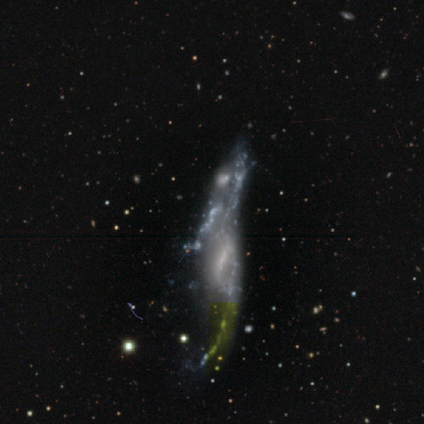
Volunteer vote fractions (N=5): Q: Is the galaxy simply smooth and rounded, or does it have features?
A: featured or disk — 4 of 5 (80%).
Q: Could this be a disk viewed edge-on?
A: no — 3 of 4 (75%).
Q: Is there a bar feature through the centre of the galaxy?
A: weak — 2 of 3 (67%).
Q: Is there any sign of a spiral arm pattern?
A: no — 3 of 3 (100%).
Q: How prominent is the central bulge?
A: small — 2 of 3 (67%).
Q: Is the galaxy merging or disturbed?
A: major disturbance — 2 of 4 (50%).